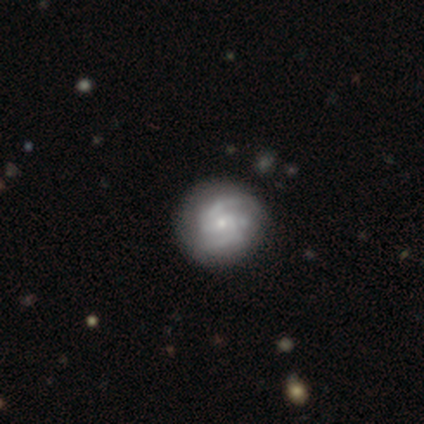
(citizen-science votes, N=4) Morphology: type=featured or disk (100%); edge-on=no (100%); bar=no (75%); spiral arms=yes (75%); winding=tight (100%); arm count=2 (100%); bulge=small (100%); merging=none (100%).